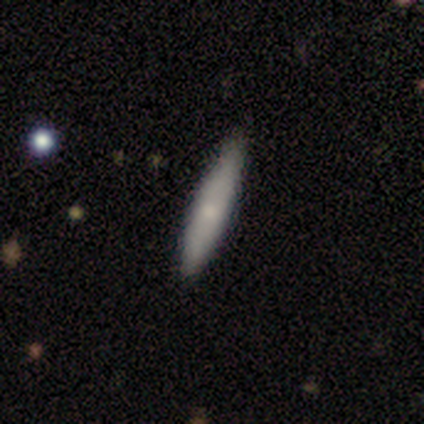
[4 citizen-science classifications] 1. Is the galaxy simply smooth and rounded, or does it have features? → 50% smooth (tied), 50% featured or disk (tied), 0% star or artifact.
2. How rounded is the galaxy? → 100% cigar-shaped, 0% round, 0% in between.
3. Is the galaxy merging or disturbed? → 50% none (tied), 50% minor disturbance (tied), 0% major disturbance, 0% merger.